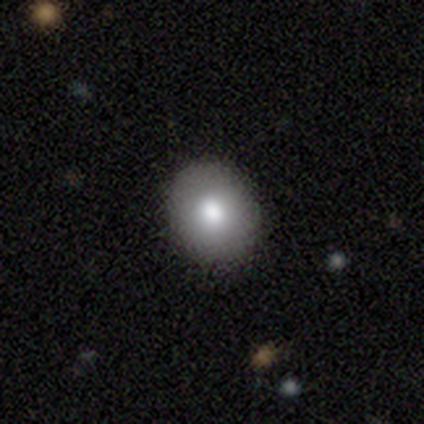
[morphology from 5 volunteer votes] type=smooth (40%, tied with featured or disk); roundness=round (50%, tied with in between); merging=none (100%).